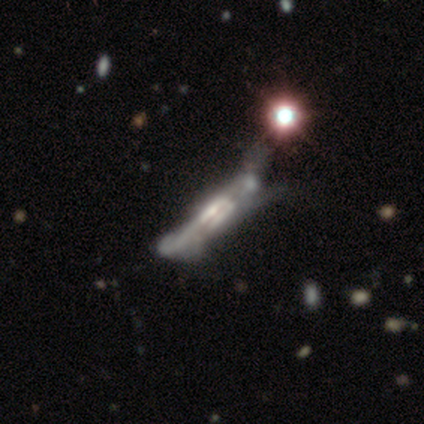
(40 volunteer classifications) Morphology: type=featured or disk (78%); edge-on=yes (84%); edge-on bulge=boxy (73%); merging=major disturbance (46%).